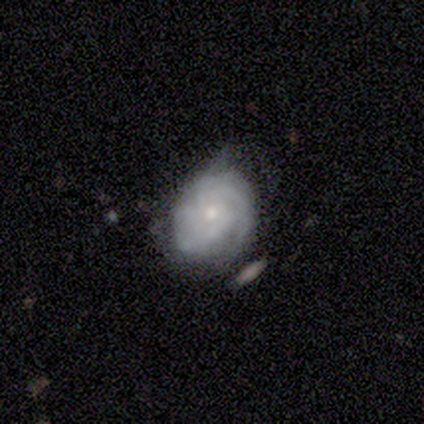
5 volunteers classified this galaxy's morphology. smooth_or_featured: featured or disk (p=1.00)
disk_edge_on: no (p=1.00)
bar: no (p=0.80) [alt: weak p=0.20]
has_spiral_arms: yes (p=1.00)
spiral_winding: tight (p=0.40) [tied with: medium p=0.40]
spiral_arm_count: can't tell (p=0.60) [alt: 3 p=0.20]
bulge_size: small (p=1.00)
merging: none (p=0.60) [alt: minor disturbance p=0.20]